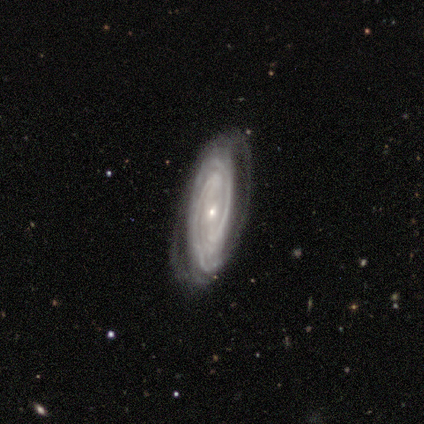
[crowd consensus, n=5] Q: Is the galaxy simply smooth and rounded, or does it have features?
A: featured or disk — 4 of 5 (80%).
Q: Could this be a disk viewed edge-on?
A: no — 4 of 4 (100%).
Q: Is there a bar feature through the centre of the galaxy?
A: no — 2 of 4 (50%).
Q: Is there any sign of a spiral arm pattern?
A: yes — 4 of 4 (100%).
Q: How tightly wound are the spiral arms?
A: tight — 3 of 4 (75%).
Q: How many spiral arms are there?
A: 2 — 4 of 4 (100%).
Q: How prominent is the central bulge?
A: small — 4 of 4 (100%).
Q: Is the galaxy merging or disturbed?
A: none — 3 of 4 (75%).